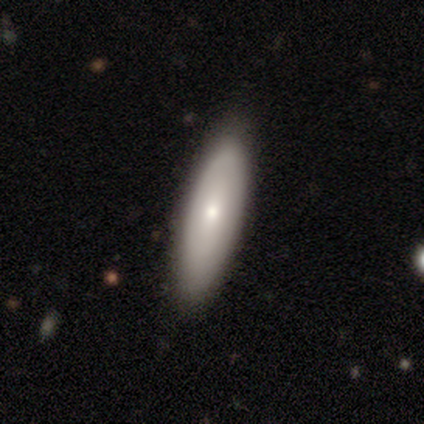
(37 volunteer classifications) Overall: smooth (57%; featured or disk 38%). How rounded: in between (52%; cigar-shaped 48%). Merging: none (94%).